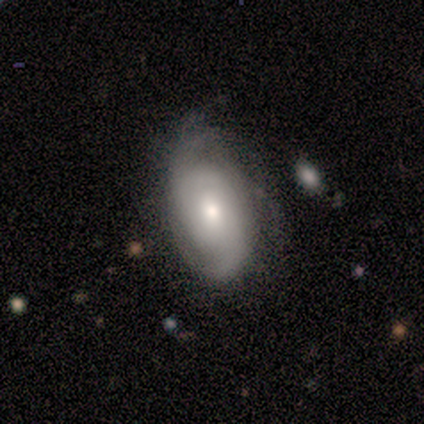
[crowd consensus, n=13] smooth_or_featured: featured or disk (p=0.69) [alt: smooth p=0.23]
disk_edge_on: no (p=1.00)
bar: weak (p=0.44) [tied with: no p=0.44]
has_spiral_arms: yes (p=0.78) [alt: no p=0.22]
spiral_winding: tight (p=0.57) [alt: loose p=0.29]
spiral_arm_count: 2 (p=0.57) [alt: can't tell p=0.29]
bulge_size: moderate (p=0.78) [alt: small p=0.22]
merging: none (p=0.67) [alt: minor disturbance p=0.17]